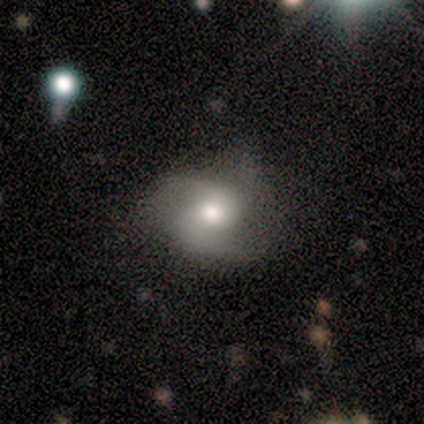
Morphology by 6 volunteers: Smooth or featured? featured or disk (83%)
Edge-on disk? no (80%)
Bar? no (75%)
Spiral arms? yes (100%)
Spiral winding? medium (100%)
Spiral arm count? 2 (50%, tied with 3)
Bulge size? moderate (50%)
Merging? none (80%)